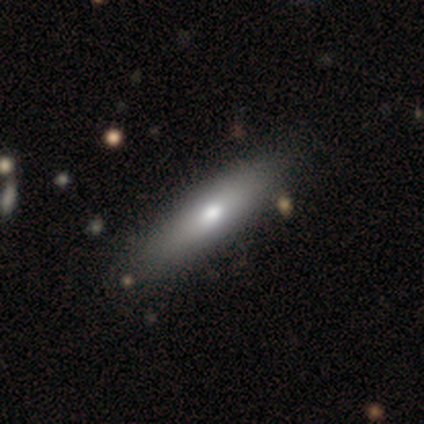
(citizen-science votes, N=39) This is likely a smooth galaxy (74%). How rounded: likely cigar-shaped (69%). Merging: possibly none (58%).